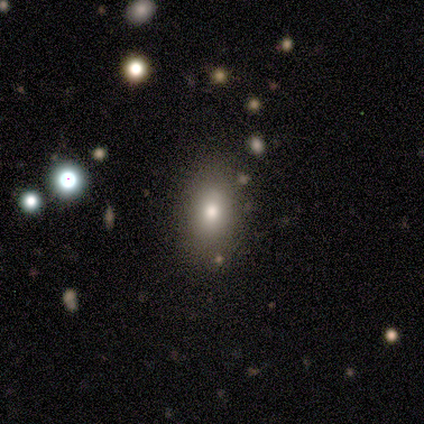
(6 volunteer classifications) smooth_or_featured: smooth (p=0.83) [alt: star or artifact p=0.17]
how_rounded: in between (p=0.60) [alt: round p=0.20]
merging: none (p=0.80) [alt: minor disturbance p=0.20]